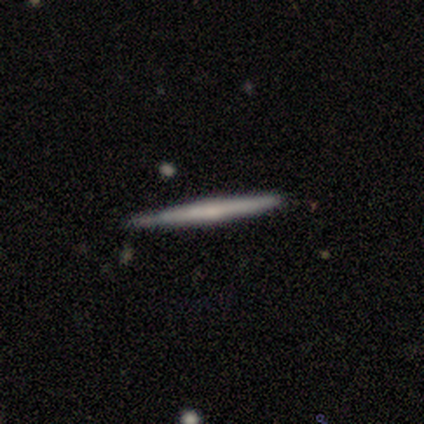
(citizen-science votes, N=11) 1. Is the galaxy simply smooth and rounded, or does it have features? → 45% smooth (tied), 45% featured or disk (tied), 9% star or artifact.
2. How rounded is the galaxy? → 100% cigar-shaped, 0% round, 0% in between.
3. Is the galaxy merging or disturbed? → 90% none, 10% minor disturbance, 0% major disturbance, 0% merger.